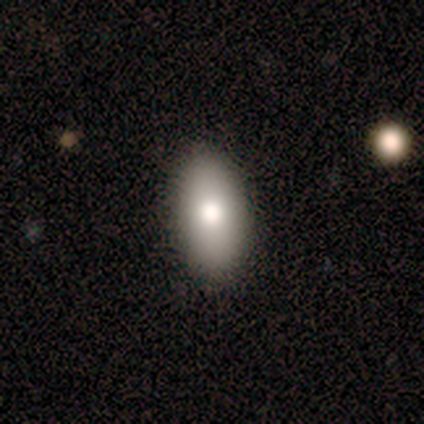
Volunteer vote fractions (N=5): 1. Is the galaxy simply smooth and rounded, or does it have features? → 60% smooth, 40% featured or disk, 0% star or artifact.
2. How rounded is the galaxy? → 100% in between, 0% round, 0% cigar-shaped.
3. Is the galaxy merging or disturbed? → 80% none, 20% minor disturbance, 0% major disturbance, 0% merger.